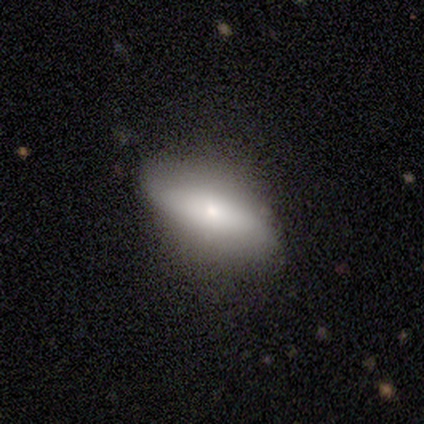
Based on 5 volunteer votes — Overall: featured or disk (60%; smooth 40%). Edge-on disk: no (67%; yes 33%). Bar: no (100%). Spiral arms: no (100%). Bulge size: small (100%). Merging: none (100%).